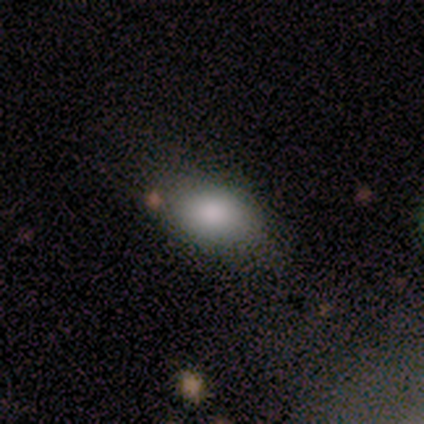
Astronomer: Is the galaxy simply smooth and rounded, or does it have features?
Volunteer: smooth — 100%.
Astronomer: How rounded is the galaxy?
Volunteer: in between — 100%.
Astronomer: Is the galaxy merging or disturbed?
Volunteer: none — 75%.